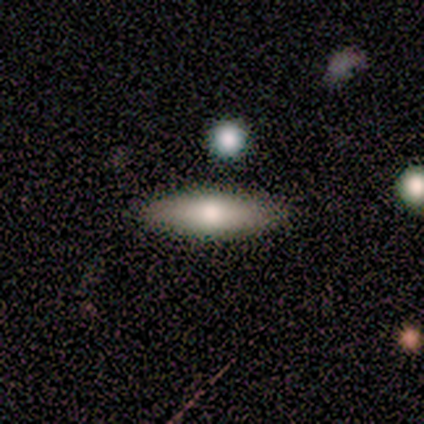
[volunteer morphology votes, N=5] Smooth or featured? 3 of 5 (60%) said featured or disk. Edge-on disk? 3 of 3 (100%) said yes. Edge-on bulge? 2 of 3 (67%) said rounded. Merging? 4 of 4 (100%) said none.